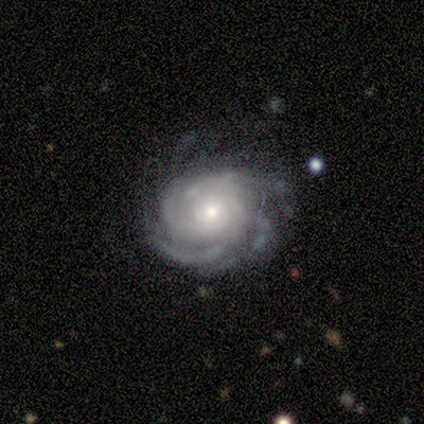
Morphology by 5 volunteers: Smooth or featured? featured or disk (80%)
Edge-on disk? no (100%)
Bar? no (75%)
Spiral arms? yes (100%)
Spiral winding? tight (75%)
Spiral arm count? 4 (50%)
Bulge size? moderate (75%)
Merging? none (75%)